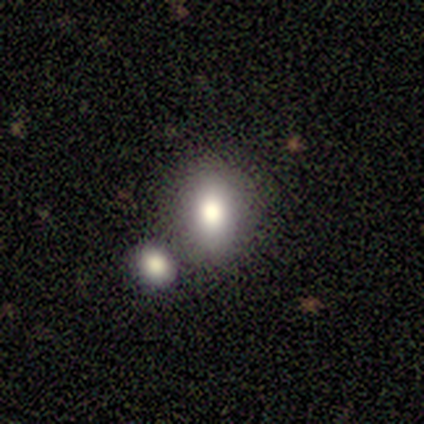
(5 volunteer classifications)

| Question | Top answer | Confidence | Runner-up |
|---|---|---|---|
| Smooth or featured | smooth | 80% | featured or disk (20%) |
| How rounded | in between | 100% | — |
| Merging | none | 80% | merger (20%) |